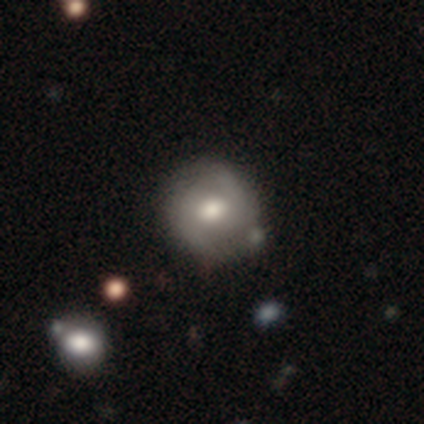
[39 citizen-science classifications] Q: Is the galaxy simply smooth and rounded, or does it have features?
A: featured or disk — 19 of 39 (49%).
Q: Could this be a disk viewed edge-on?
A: no — 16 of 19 (84%).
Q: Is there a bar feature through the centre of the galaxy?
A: no — 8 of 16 (50%).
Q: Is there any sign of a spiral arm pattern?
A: yes — 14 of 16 (88%).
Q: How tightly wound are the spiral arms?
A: medium — 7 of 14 (50%).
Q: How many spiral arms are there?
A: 2 — 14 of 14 (100%).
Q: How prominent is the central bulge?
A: moderate — 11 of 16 (69%).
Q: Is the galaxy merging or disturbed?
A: none — 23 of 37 (62%).